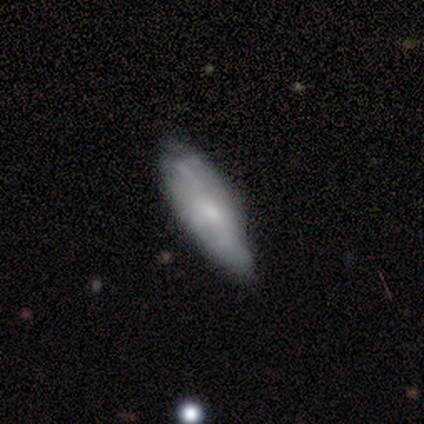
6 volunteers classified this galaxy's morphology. This is clearly a smooth galaxy (83%). How rounded: clearly in between (80%). Merging: likely minor disturbance (67%).